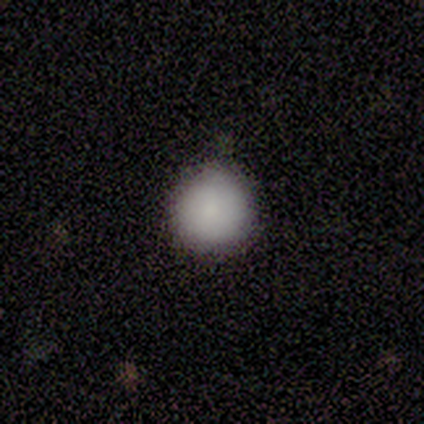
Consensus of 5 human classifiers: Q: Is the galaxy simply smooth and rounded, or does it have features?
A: smooth — 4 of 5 (80%).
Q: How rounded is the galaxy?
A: round — 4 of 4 (100%).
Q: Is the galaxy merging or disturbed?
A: none — 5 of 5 (100%).